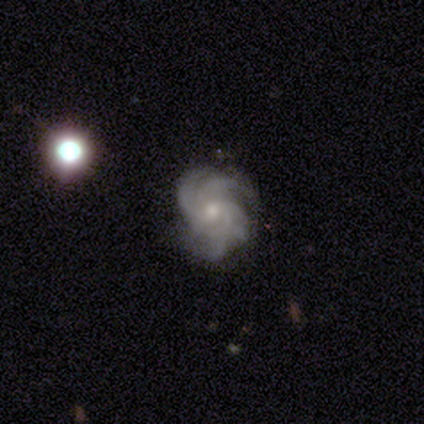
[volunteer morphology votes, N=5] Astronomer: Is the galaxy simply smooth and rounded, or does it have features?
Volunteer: featured or disk — 100%.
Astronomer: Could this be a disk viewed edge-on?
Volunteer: no — 100%.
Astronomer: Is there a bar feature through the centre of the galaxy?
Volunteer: weak — 40%, tied with no at 40%.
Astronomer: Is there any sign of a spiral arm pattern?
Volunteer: yes — 100%.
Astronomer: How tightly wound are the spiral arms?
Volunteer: tight — 40%, tied with loose at 40%.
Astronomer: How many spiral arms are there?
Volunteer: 3 — 40% (runner-up: 4, 20%).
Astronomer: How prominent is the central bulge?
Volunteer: small — 60%.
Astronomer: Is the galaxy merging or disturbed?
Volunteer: none — 60% (runner-up: minor disturbance, 40%).